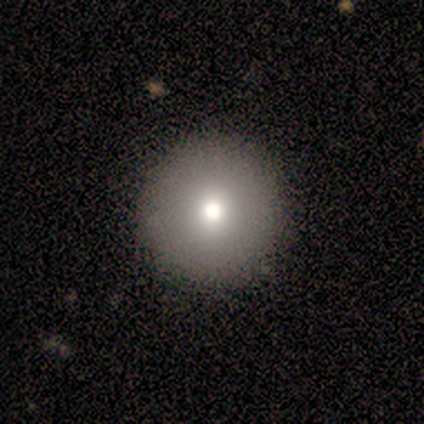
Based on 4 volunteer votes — Smooth or featured?
  - smooth: 75% *
  - star or artifact: 25%
  - featured or disk: 0%
How rounded?
  - round: 100% *
  - in between: 0%
  - cigar-shaped: 0%
Merging?
  - none: 100% *
  - minor disturbance: 0%
  - major disturbance: 0%
  - merger: 0%